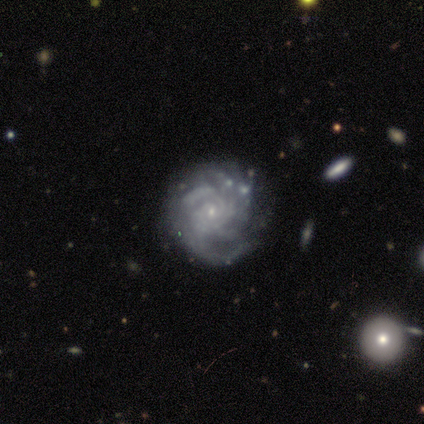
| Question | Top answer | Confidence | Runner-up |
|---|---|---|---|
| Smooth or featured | featured or disk | 100% | — |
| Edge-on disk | no | 100% | — |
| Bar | no | 75% | weak (25%) |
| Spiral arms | yes | 100% | — |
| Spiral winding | tight | 100% | — |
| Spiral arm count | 3 | 25% | tied: 4 (25%), more than 4 (25%), can't tell (25%) |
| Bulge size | small | 75% | moderate (25%) |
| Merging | none | 50% | minor disturbance (25%) |